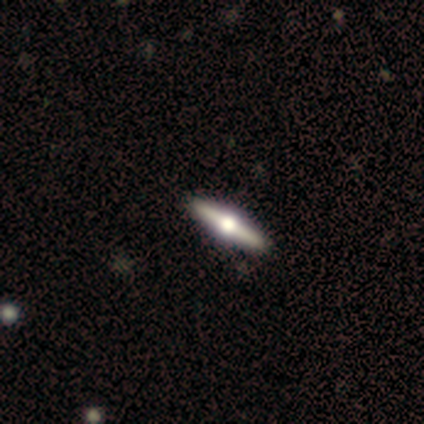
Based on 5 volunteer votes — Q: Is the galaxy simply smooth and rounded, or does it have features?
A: featured or disk — 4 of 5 (80%).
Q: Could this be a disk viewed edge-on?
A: yes — 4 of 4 (100%).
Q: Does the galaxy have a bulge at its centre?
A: rounded — 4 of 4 (100%).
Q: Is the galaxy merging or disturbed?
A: none — 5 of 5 (100%).